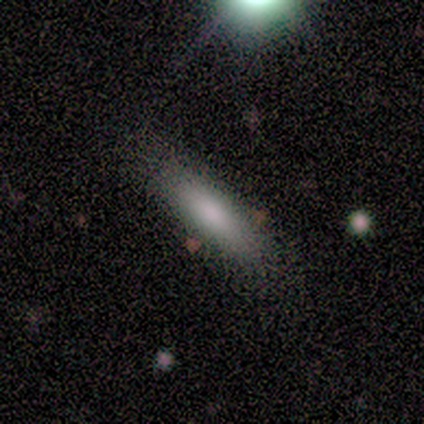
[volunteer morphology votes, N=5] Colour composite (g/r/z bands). It shows a smooth galaxy with no disk features (60%) that is in between round and cigar-shaped (67%). Merging: none (60%).